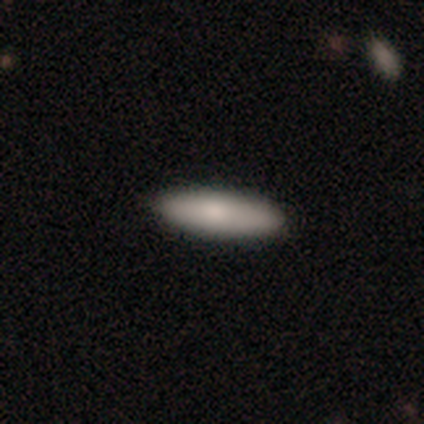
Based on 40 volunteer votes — Q: Smooth or featured?
A: smooth (82%); runner-up: featured or disk (18%)
Q: How rounded?
A: cigar-shaped (52%); runner-up: in between (48%)
Q: Merging?
A: none (70%); runner-up: minor disturbance (8%)